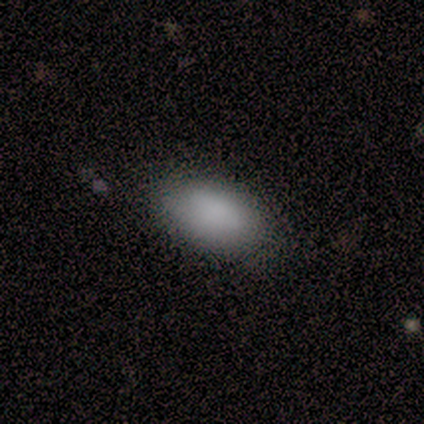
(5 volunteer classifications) Morphology: type=smooth (100%); roundness=in between (100%); merging=none (100%).